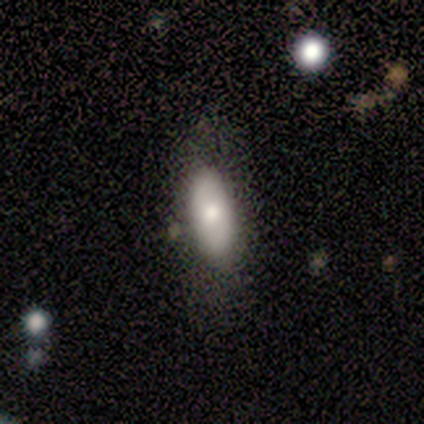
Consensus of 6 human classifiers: Volunteers were most divided on "merging" (2-way tie): none: 50%, minor disturbance: 50%, major disturbance: 0%, merger: 0%. More confident: how rounded — in between (100%); smooth or featured — smooth (83%).